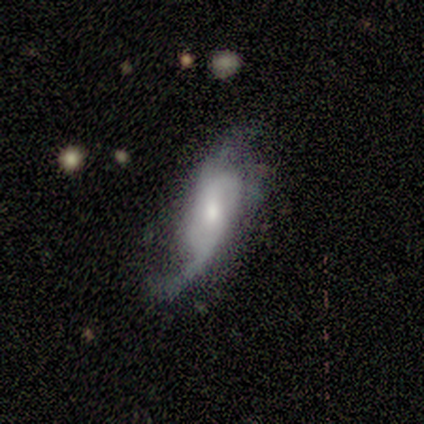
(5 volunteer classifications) This is likely a smooth galaxy (60%). How rounded: likely in between (67%). Merging: likely major disturbance (60%).